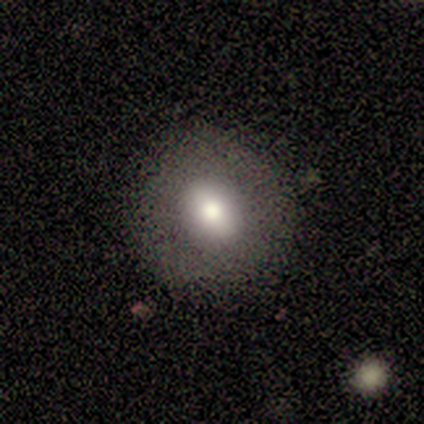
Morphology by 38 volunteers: Volunteers were most divided on "how rounded": round: 62%, in between: 38%, cigar-shaped: 0%. More confident: merging — none (82%); smooth or featured — smooth (68%).